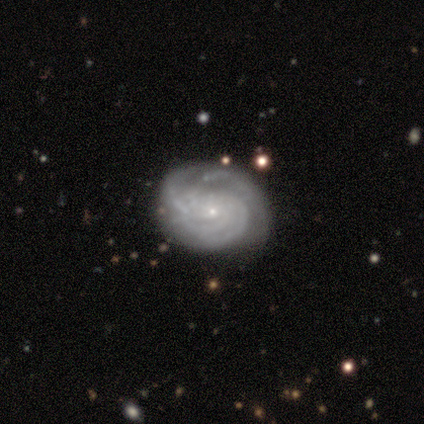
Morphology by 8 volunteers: Smooth or featured?
  - featured or disk: 75% *
  - smooth: 12%
  - star or artifact: 12%
Edge-on disk?
  - no: 100% *
  - yes: 0%
Bar?
  - no: 67% *
  - weak: 33%
  - strong: 0%
Spiral arms?
  - yes: 100% *
  - no: 0%
Spiral winding?
  - tight: 50% * (tied)
  - medium: 50% * (tied)
  - loose: 0%
Spiral arm count?
  - 2: 33% * (tied)
  - 4: 33% * (tied)
  - 3: 17%
  - can't tell: 17%
  - 1: 0%
  - more than 4: 0%
Bulge size?
  - small: 100% *
  - dominant: 0%
  - large: 0%
  - moderate: 0%
  - none: 0%
Merging?
  - none: 57% *
  - minor disturbance: 43%
  - major disturbance: 0%
  - merger: 0%